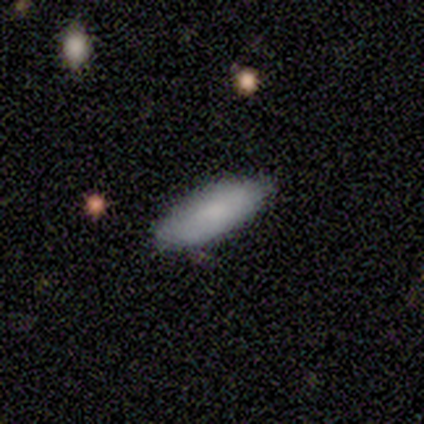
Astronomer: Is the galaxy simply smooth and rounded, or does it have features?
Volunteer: smooth — 100%.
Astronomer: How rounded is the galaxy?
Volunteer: cigar-shaped — 75%.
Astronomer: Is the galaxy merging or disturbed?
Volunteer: none — 75%.